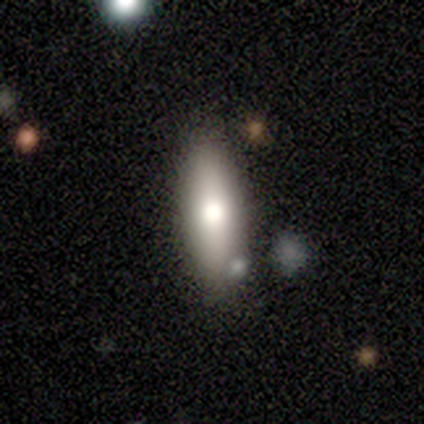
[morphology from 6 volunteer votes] Volunteers were most divided on "how rounded": in between: 80%, cigar-shaped: 20%, round: 0%. More confident: merging — none (100%); smooth or featured — smooth (83%).